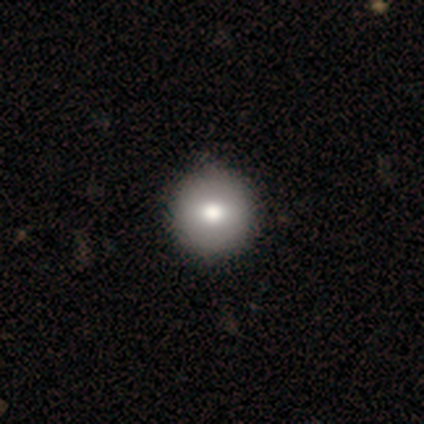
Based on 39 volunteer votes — Smooth or featured? smooth (90%)
How rounded? round (91%)
Merging? none (66%)